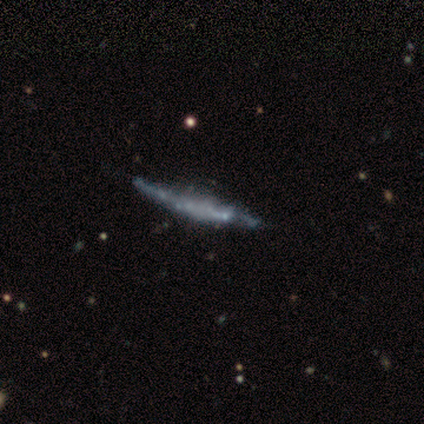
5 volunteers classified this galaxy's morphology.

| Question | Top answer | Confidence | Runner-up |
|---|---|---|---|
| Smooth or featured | featured or disk | 80% | smooth (20%) |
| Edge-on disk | yes | 75% | no (25%) |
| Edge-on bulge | rounded | 67% | none (33%) |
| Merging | none | 60% | minor disturbance (20%) |